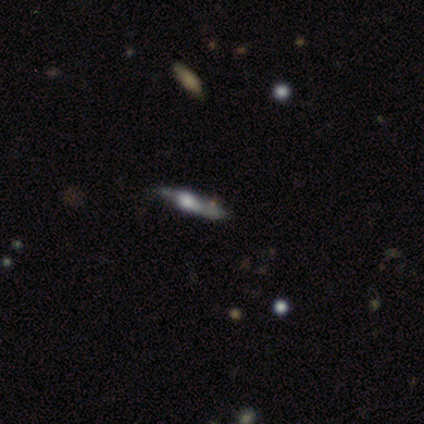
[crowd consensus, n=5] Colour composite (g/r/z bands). It shows a smooth galaxy with no disk features (60%) that is cigar-shaped (67%). Merging: none (80%).